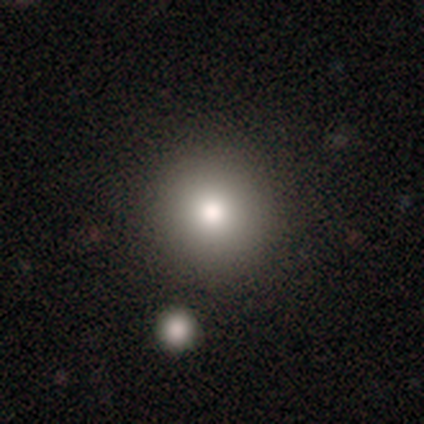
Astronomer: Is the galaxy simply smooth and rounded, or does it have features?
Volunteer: smooth — 100%.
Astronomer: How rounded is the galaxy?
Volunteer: round — 100%.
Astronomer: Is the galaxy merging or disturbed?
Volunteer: none — 100%.